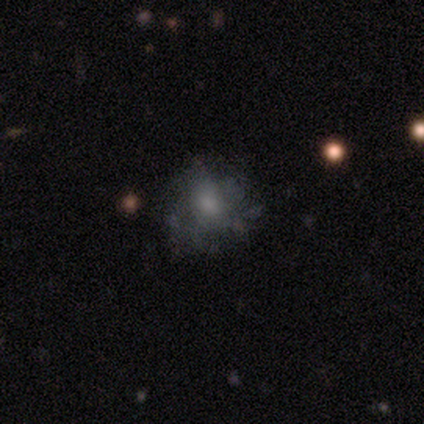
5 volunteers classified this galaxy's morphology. Smooth or featured? featured or disk (80%)
Edge-on disk? no (100%)
Bar? no (75%)
Spiral arms? yes (75%)
Spiral winding? loose (67%)
Spiral arm count? can't tell (100%)
Bulge size? moderate (50%)
Merging? none (80%)